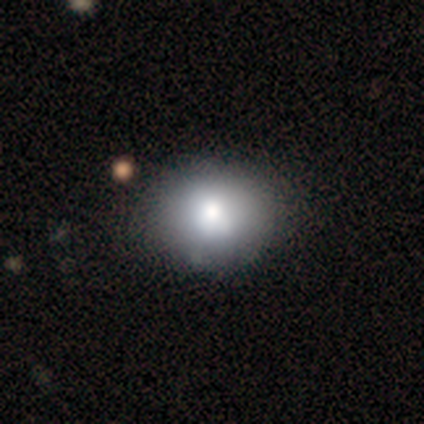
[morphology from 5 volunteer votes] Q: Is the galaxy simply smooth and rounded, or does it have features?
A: smooth — 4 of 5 (80%).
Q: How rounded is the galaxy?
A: round — 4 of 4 (100%).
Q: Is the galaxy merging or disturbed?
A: none — 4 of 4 (100%).